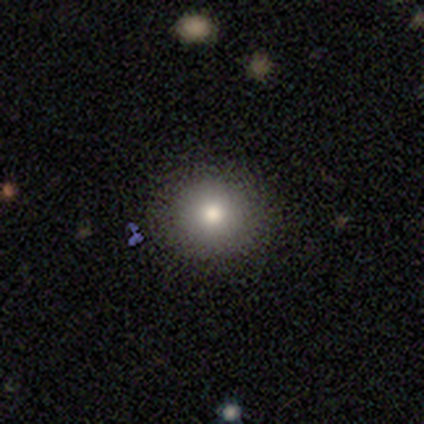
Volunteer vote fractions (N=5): A smooth galaxy with no disk features (60%) that is round (100%). Merging: none (100%).